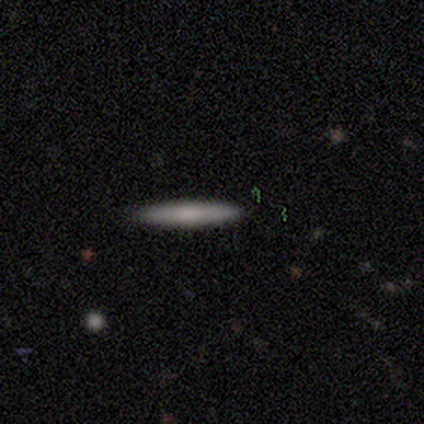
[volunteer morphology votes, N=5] type=featured or disk (60%); edge-on=yes (100%); edge-on bulge=boxy (33%, tied with none and rounded); merging=none (80%).